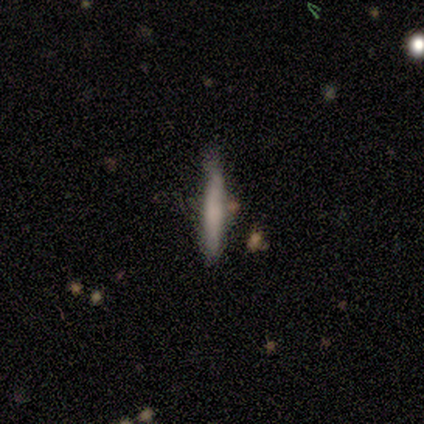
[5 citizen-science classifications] Volunteers were most divided on "merging": none: 60%, minor disturbance: 40%, major disturbance: 0%, merger: 0%. More confident: smooth or featured — smooth (100%); how rounded — cigar-shaped (100%).